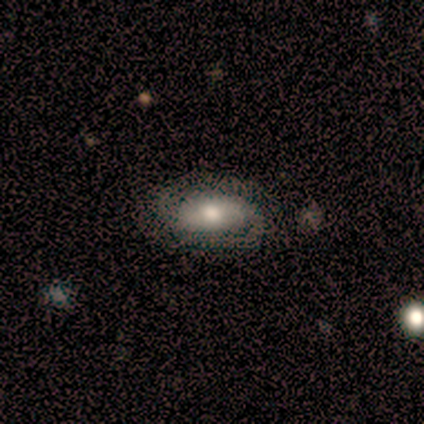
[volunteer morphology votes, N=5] Smooth or featured: featured or disk — 60% (smooth — 20%)
Edge-on disk: no — 100%
Bar: weak — 67% (strong — 33%)
Spiral arms: yes — 100%
Spiral winding: medium — 67% (loose — 33%)
Spiral arm count: 2 — 100%
Bulge size: moderate — 67% (large — 33%)
Merging: none — 50% (tied with major disturbance — 50%)